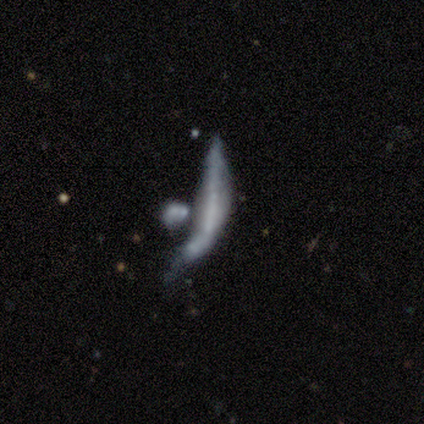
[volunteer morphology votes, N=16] Smooth or featured: featured or disk — 56% (smooth — 25%)
Edge-on disk: no — 78% (yes — 22%)
Bar: no — 86% (strong — 14%)
Spiral arms: no — 86% (yes — 14%)
Bulge size: none — 86% (moderate — 14%)
Merging: none — 31% (tied with major disturbance — 31%; merger — 31%)